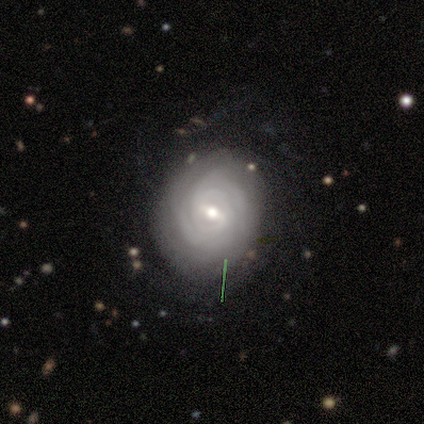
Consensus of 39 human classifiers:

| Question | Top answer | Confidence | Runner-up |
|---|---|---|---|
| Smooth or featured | featured or disk | 79% | smooth (10%) |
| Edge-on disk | no | 90% | yes (10%) |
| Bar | weak | 68% | no (18%) |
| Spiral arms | yes | 100% | — |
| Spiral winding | tight | 82% | medium (11%) |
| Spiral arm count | can't tell | 50% | 3 (18%) |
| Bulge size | moderate | 61% | small (36%) |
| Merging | none | 66% | minor disturbance (26%) |